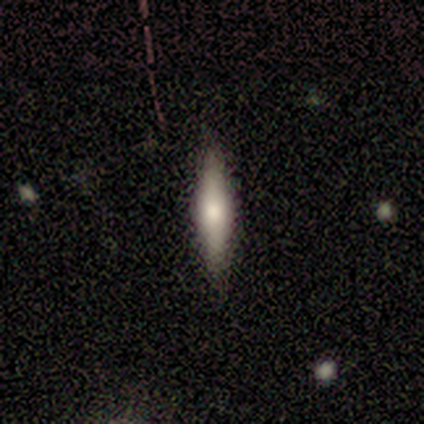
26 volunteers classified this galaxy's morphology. type=smooth (54%); roundness=cigar-shaped (79%); merging=none (96%).